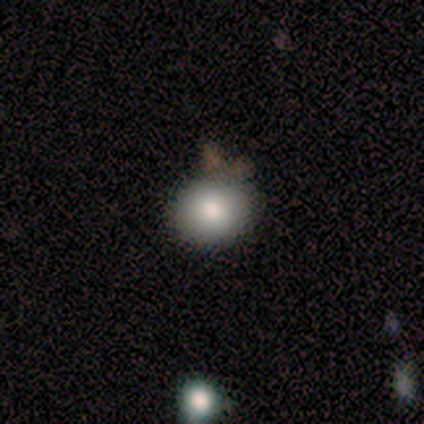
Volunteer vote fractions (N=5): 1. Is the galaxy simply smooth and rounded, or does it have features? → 80% smooth, 20% featured or disk, 0% star or artifact.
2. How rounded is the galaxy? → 50% round (tied), 50% in between (tied), 0% cigar-shaped.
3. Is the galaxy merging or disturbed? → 100% none, 0% minor disturbance, 0% major disturbance, 0% merger.